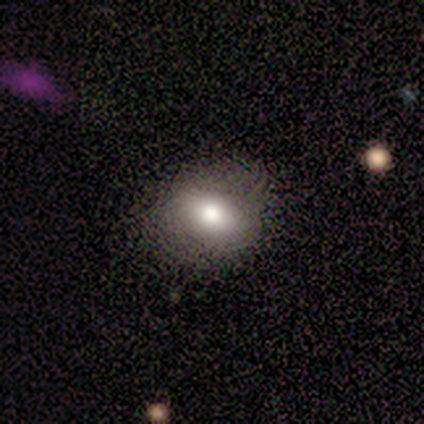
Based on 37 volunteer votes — A smooth galaxy with no disk features (70%) that is in between round and cigar-shaped (69%). Merging: none (81%).